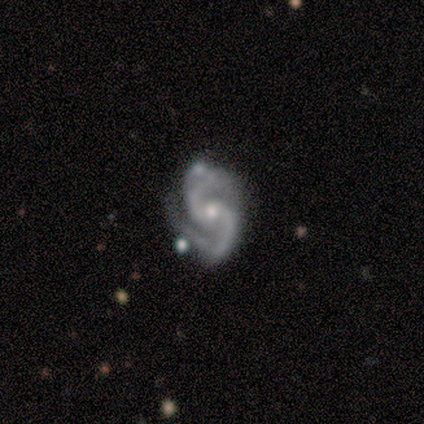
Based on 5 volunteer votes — Overall: featured or disk (100%). Edge-on disk: no (100%). Bar: no (60%; strong 20%). Spiral arms: yes (100%). Spiral arm count: 2 (100%). Spiral winding: loose (80%). Bulge size: small (80%). Merging: none (60%; major disturbance 40%).